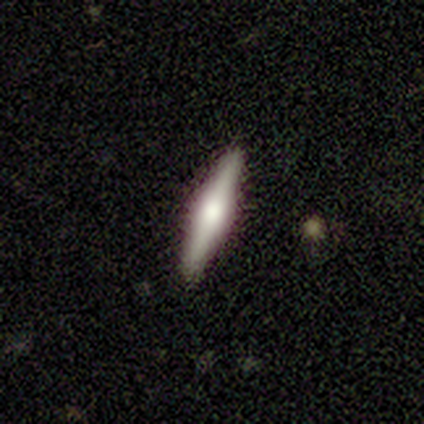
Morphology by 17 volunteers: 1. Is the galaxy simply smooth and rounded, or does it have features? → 76% featured or disk, 24% smooth, 0% star or artifact.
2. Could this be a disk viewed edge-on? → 100% yes, 0% no.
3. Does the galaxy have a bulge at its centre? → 77% rounded, 23% boxy, 0% none.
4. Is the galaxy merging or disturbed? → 94% none, 6% minor disturbance, 0% major disturbance, 0% merger.